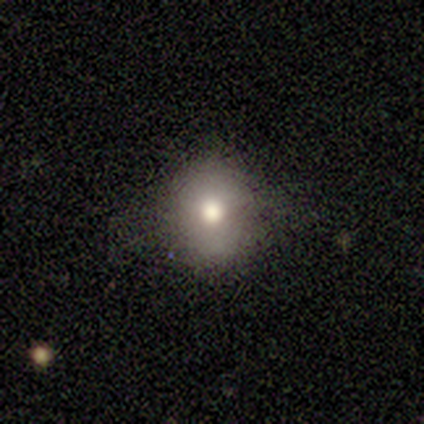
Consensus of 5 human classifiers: Morphology: type=featured or disk (40%, tied with star or artifact); edge-on=no (100%); bar=no (100%); spiral arms=no (100%); bulge=moderate (100%); merging=none (100%).